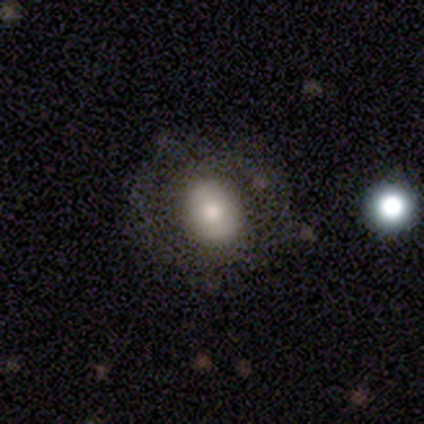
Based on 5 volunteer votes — This appears to be a featured or disk galaxy (60%) with no bar (100%), no spiral arms (100%) and a moderate central bulge (67%). Merging: none (75%).